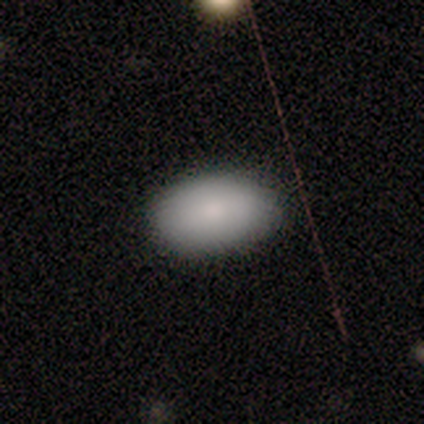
smooth 100%, featured or disk 0%, star or artifact 0%. Down the decision tree: how rounded — in between (100%); merging — none (80%).